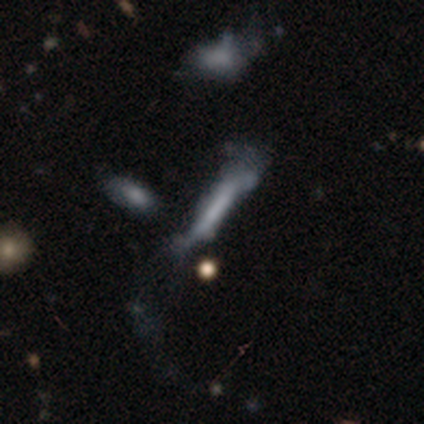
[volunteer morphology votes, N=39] smooth_or_featured: smooth (p=0.44) [tied with: featured or disk p=0.44]
how_rounded: cigar-shaped (p=0.94) [alt: round p=0.06]
merging: major disturbance (p=0.44) [alt: minor disturbance p=0.26]